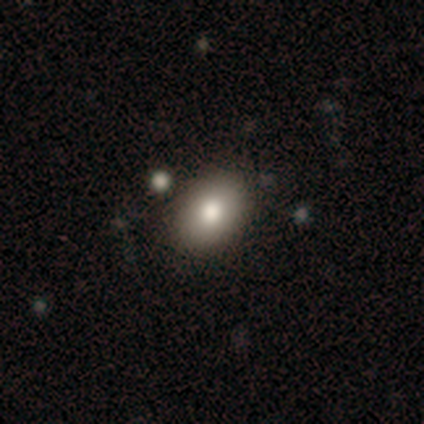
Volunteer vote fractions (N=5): smooth_or_featured: smooth (p=1.00)
how_rounded: in between (p=0.80) [alt: round p=0.20]
merging: none (p=1.00)